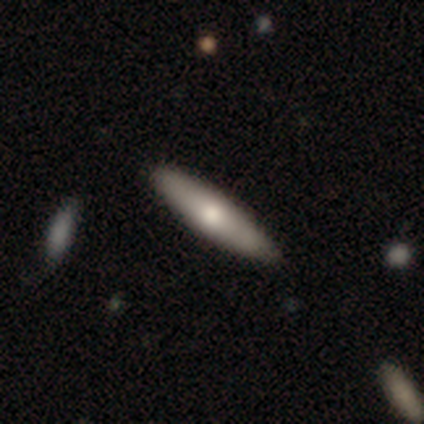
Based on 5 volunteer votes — Smooth or featured?
  - featured or disk: 100% *
  - smooth: 0%
  - star or artifact: 0%
Edge-on disk?
  - yes: 80% *
  - no: 20%
Edge-on bulge?
  - rounded: 100% *
  - boxy: 0%
  - none: 0%
Merging?
  - none: 100% *
  - minor disturbance: 0%
  - major disturbance: 0%
  - merger: 0%